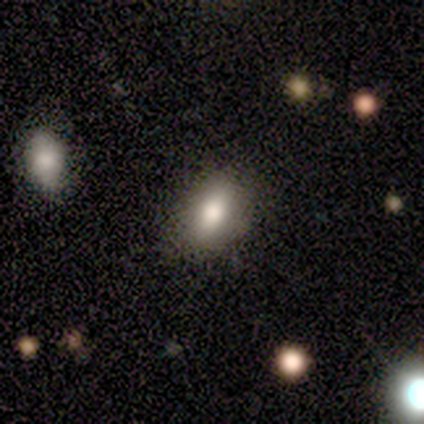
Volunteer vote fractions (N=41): smooth-or-featured: smooth: 90% | featured or disk: 10% | star or artifact: 0%
  how-rounded: in between: 81% | round: 14% | cigar-shaped: 5%
  merging: none: 83% | minor disturbance: 15% | major disturbance: 2% | merger: 0%